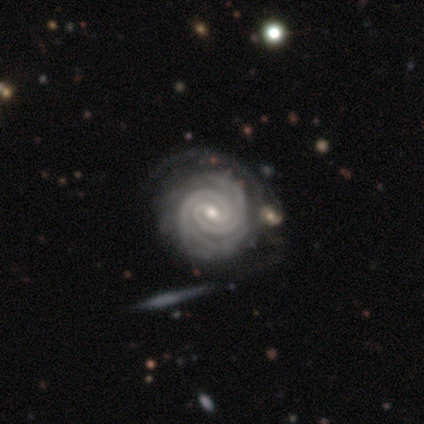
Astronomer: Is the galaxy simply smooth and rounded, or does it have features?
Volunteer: featured or disk — 98%.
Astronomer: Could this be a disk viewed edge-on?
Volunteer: no — 100%.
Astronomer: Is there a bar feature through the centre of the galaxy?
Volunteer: weak — 69%.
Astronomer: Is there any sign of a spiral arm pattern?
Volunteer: yes — 100%.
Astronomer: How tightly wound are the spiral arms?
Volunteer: tight — 95%.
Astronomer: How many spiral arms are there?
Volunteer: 2 — 72%.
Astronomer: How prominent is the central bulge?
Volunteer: small — 49% (runner-up: moderate, 46%).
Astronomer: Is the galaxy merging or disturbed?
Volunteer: none — 33% (runner-up: minor disturbance, 23%).